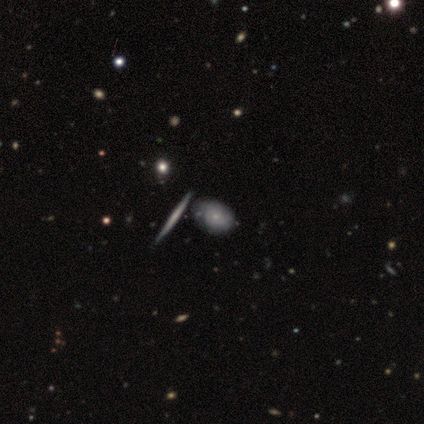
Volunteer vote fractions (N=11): This appears to be a featured or disk galaxy (73%) viewed edge-on (50%, tied with no) with no central bulge (100%). Merging: none (36%, tied with major disturbance).